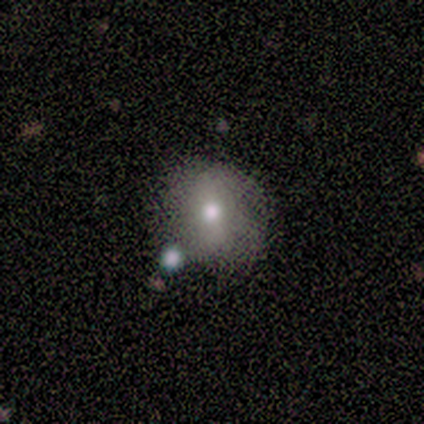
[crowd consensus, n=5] Smooth or featured? smooth (80%)
How rounded? round (50%)
Merging? none (100%)